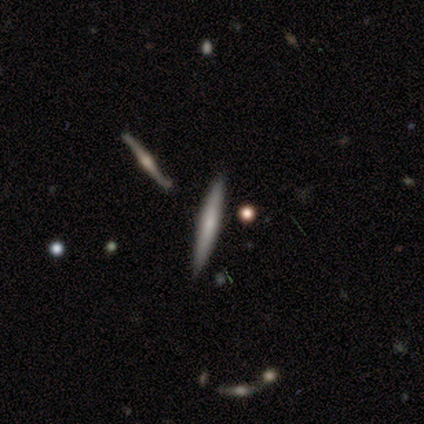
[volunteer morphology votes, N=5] smooth_or_featured: featured or disk (p=0.60) [alt: smooth p=0.40]
disk_edge_on: yes (p=1.00)
edge_on_bulge: rounded (p=1.00)
merging: none (p=1.00)